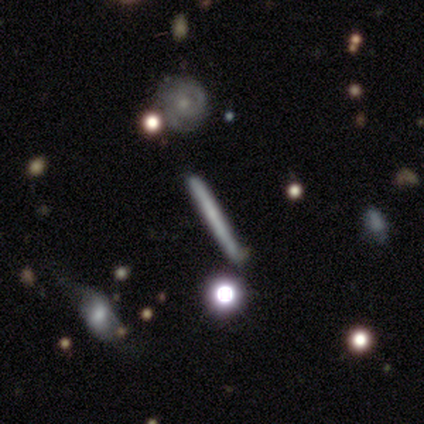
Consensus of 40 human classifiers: Q: Smooth or featured?
A: featured or disk (48%); runner-up: smooth (45%)
Q: Edge-on disk?
A: yes (95%); runner-up: no (5%)
Q: Edge-on bulge?
A: none (78%); runner-up: rounded (22%)
Q: Merging?
A: none (78%); runner-up: minor disturbance (16%)